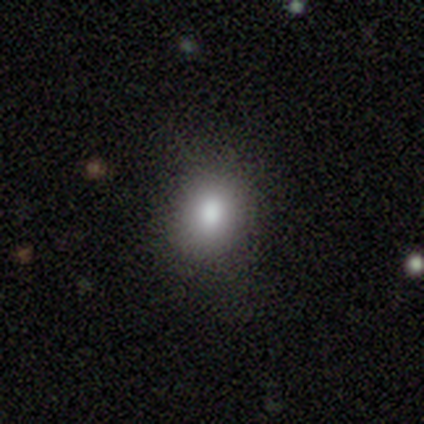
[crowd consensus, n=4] Smooth or featured?
  - smooth: 100% *
  - featured or disk: 0%
  - star or artifact: 0%
How rounded?
  - round: 50% * (tied)
  - in between: 50% * (tied)
  - cigar-shaped: 0%
Merging?
  - none: 100% *
  - minor disturbance: 0%
  - major disturbance: 0%
  - merger: 0%